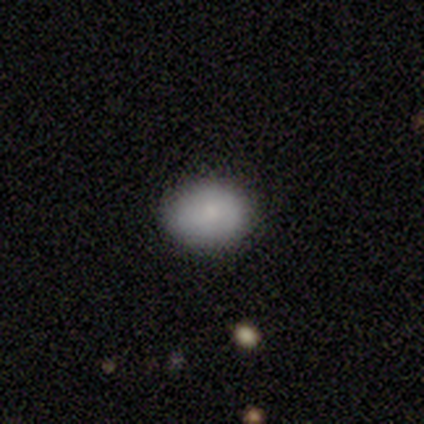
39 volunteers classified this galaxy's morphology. smooth-or-featured: smooth: 85% | featured or disk: 10% | star or artifact: 5%
  how-rounded: in between: 64% | round: 36% | cigar-shaped: 0%
  merging: none: 89% | minor disturbance: 11% | major disturbance: 0% | merger: 0%